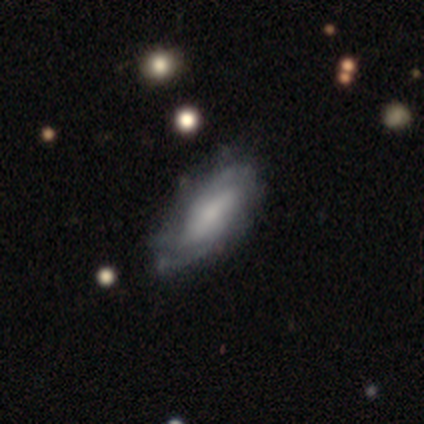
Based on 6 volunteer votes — Morphology: type=featured or disk (100%); edge-on=no (100%); bar=weak (67%); spiral arms=yes (100%); winding=medium (83%); arm count=2 (50%, tied with can't tell); bulge=large (33%, tied with small); merging=none (83%).